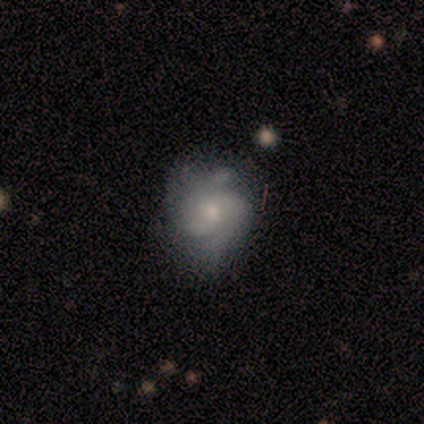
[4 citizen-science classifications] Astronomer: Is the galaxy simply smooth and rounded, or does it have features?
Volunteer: smooth — 75%.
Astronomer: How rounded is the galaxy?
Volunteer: round — 67%.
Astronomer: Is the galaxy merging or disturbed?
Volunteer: none — 75%.